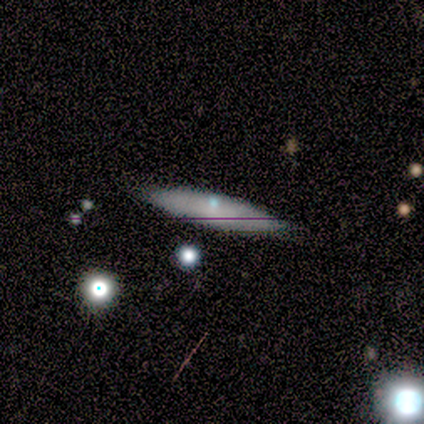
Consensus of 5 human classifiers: Volunteers were most divided on "edge-on bulge" (2-way tie): none: 50%, rounded: 50%, boxy: 0%. More confident: merging — none (100%); edge-on disk — yes (67%); smooth or featured — featured or disk (60%).